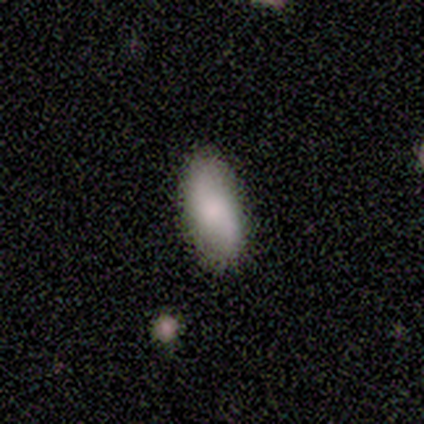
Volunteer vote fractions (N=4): smooth_or_featured: smooth (p=0.50) [tied with: featured or disk p=0.50]
how_rounded: in between (p=0.50) [tied with: cigar-shaped p=0.50]
merging: none (p=1.00)